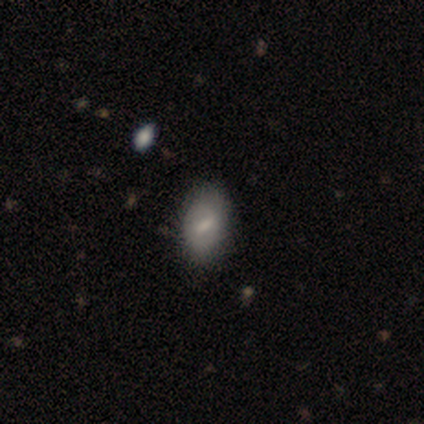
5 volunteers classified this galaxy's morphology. Smooth or featured? 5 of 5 (100%) said smooth. How rounded? 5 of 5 (100%) said in between. Merging? 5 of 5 (100%) said none.